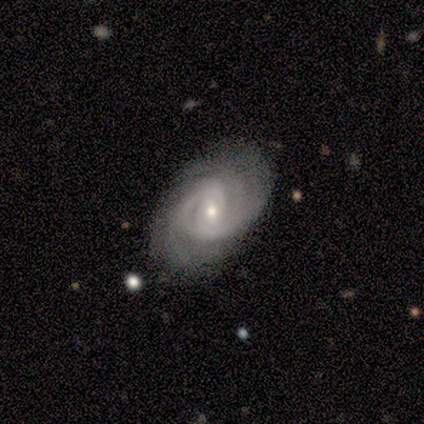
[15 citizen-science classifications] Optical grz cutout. It shows a featured or disk galaxy (93%) with a weak bar (57%), 2 (42%) tight (58%) spiral arms (86%) and a small central bulge (71%). Merging: none (87%).